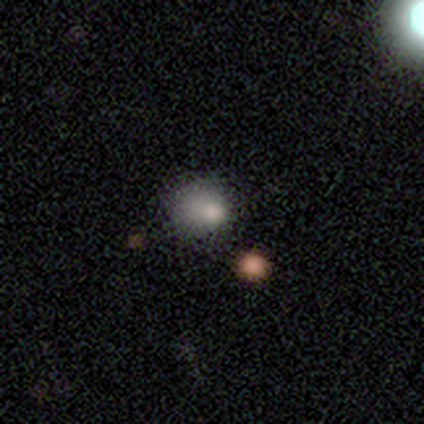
Morphology: type=smooth (75%); roundness=in between (67%); merging=minor disturbance (67%).